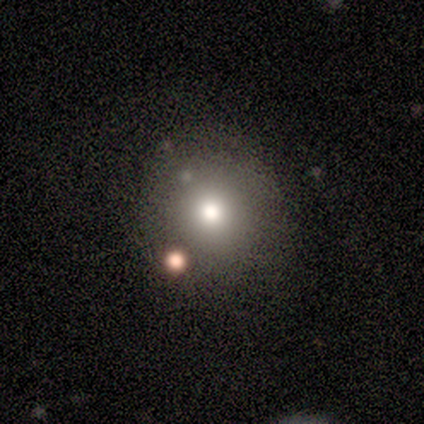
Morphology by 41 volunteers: This is likely a smooth galaxy (78%). How rounded: clearly round (88%). Merging: clearly none (84%).